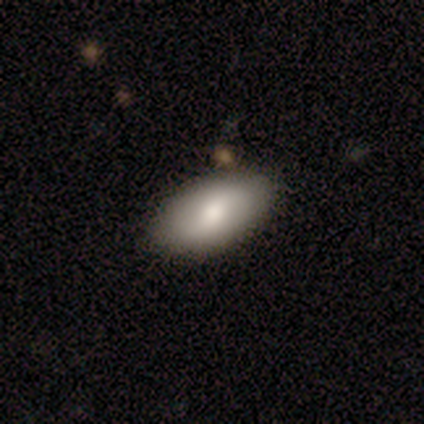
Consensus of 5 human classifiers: This is clearly a smooth galaxy (80%). How rounded: clearly in between (100%). Merging: clearly none (100%).